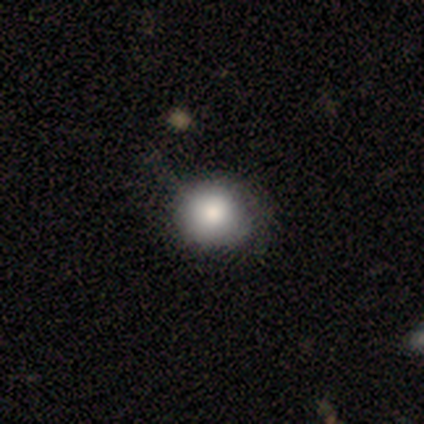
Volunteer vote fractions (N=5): Q: Smooth or featured?
A: smooth (100%)
Q: How rounded?
A: round (60%); runner-up: in between (40%)
Q: Merging?
A: none (60%); runner-up: minor disturbance (40%)